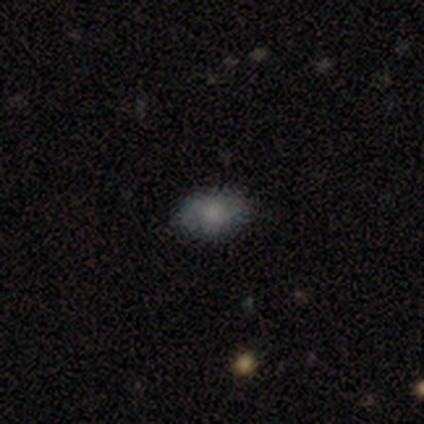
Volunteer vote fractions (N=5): This is clearly a smooth galaxy (80%). How rounded: clearly in between (100%). Merging: clearly none (100%).